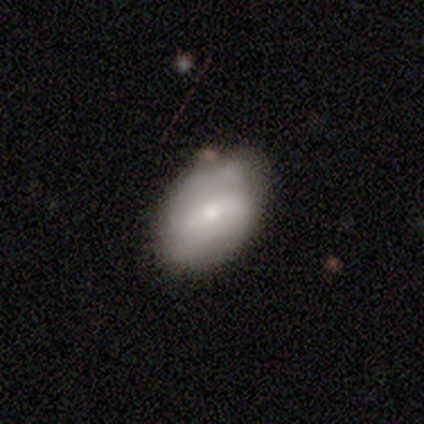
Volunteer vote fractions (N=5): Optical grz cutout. It shows a featured or disk galaxy (60%) with a weak bar (100%), 2 (100%) medium (100%) spiral arms (67%) and a small central bulge (100%). Merging: none (60%).